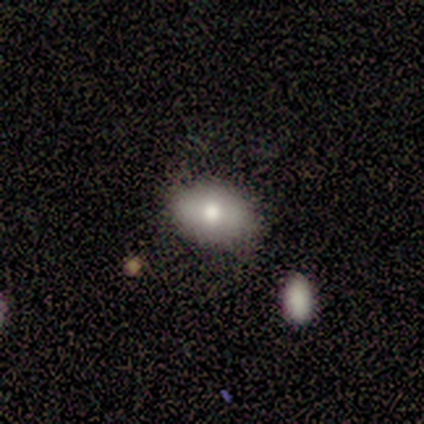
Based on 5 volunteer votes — This appears to be a smooth galaxy with no disk features (80%) that is in between round and cigar-shaped (100%). Merging: none (50%).